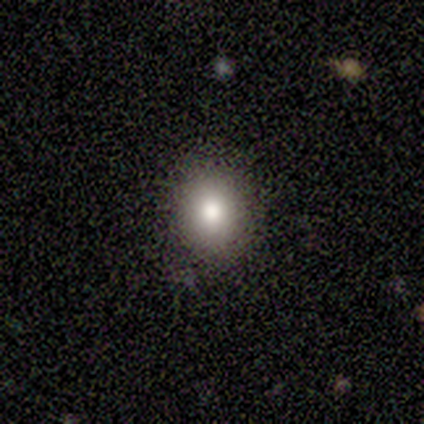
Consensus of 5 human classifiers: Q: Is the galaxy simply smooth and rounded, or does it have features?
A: smooth — 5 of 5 (100%).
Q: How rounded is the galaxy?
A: round — 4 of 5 (80%).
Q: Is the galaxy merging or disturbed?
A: none — 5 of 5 (100%).